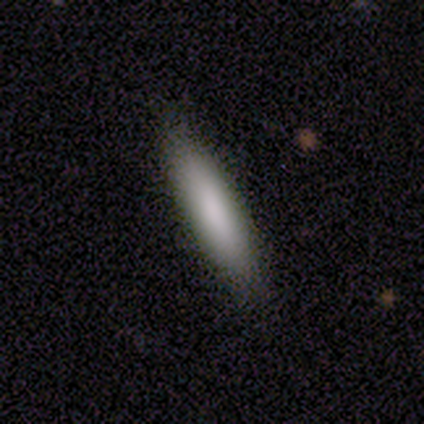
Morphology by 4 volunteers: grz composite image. It shows a smooth galaxy with no disk features (75%) that is in between round and cigar-shaped (67%). Merging: none (100%).